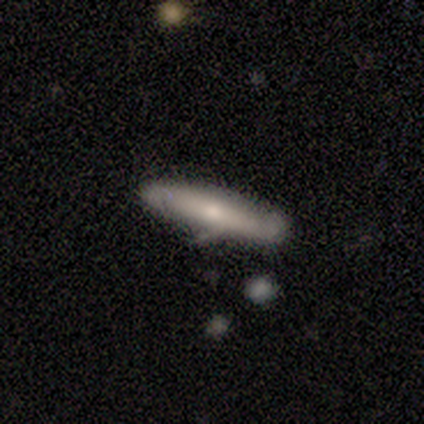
Q: Smooth or featured?
A: featured or disk (60%); runner-up: smooth (40%)
Q: Edge-on disk?
A: yes (67%); runner-up: no (33%)
Q: Edge-on bulge?
A: rounded (100%)
Q: Merging?
A: none (70%); runner-up: minor disturbance (30%)